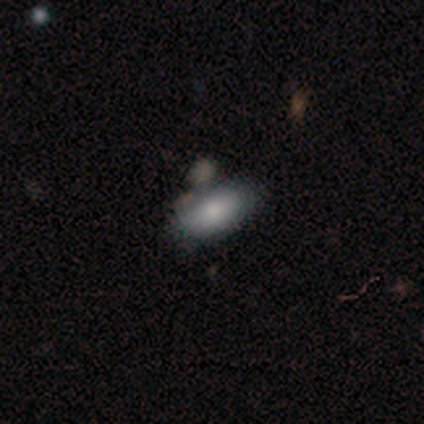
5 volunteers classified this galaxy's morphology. type=smooth (80%); roundness=in between (75%); merging=none (100%).